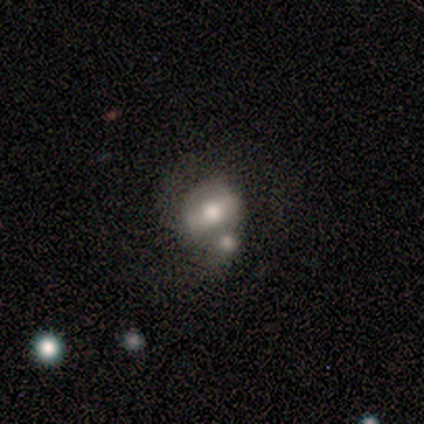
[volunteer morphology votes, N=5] smooth_or_featured: featured or disk (p=0.40) [tied with: star or artifact p=0.40]
disk_edge_on: no (p=1.00)
bar: strong (p=0.50) [tied with: weak p=0.50]
has_spiral_arms: yes (p=1.00)
spiral_winding: tight (p=0.50) [tied with: loose p=0.50]
spiral_arm_count: 2 (p=1.00)
bulge_size: large (p=0.50) [tied with: moderate p=0.50]
merging: merger (p=0.67) [alt: none p=0.33]